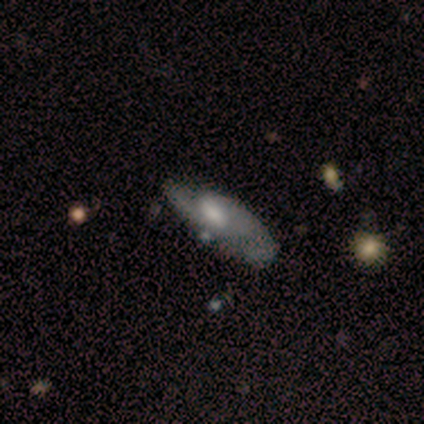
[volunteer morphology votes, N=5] smooth-or-featured: featured or disk: 80% | smooth: 20% | star or artifact: 0%
  disk-edge-on: no: 100% | yes: 0%
    bar: weak: 50% (tied) | no: 50% (tied) | strong: 0%
    has-spiral-arms: yes: 100% | no: 0%
      spiral-winding: medium: 50% | tight: 25% | loose: 25%
      spiral-arm-count: 2: 50% | 1: 25% | can't tell: 25% | 3: 0% | 4: 0% | more than 4: 0%
    bulge-size: small: 50% | moderate: 25% | none: 25% | dominant: 0% | large: 0%
  merging: minor disturbance: 60% | none: 40% | major disturbance: 0% | merger: 0%